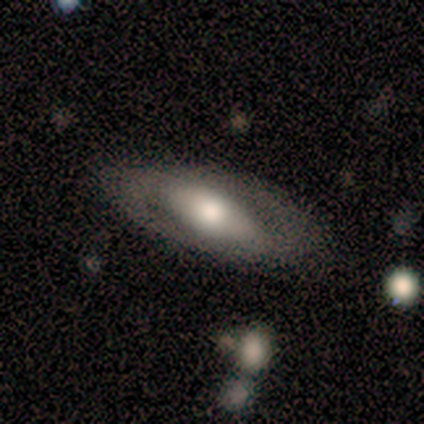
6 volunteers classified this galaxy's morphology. Smooth or featured? 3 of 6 (50%, tied with featured or disk) said smooth. How rounded? 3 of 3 (100%) said in between. Merging? 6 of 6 (100%) said none.